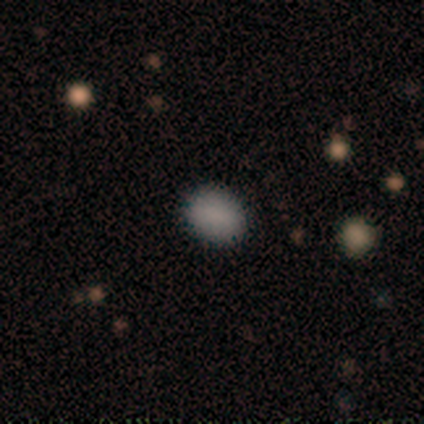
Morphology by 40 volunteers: This is clearly a smooth galaxy (88%). How rounded: likely in between (63%). Merging: clearly none (95%).